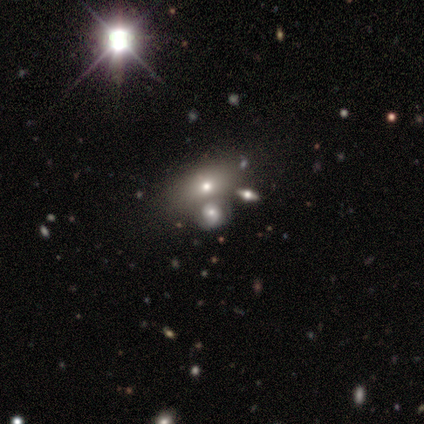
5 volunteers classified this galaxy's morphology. This is clearly a smooth galaxy (80%). How rounded: likely round (75%). Merging: possibly merger (50%).